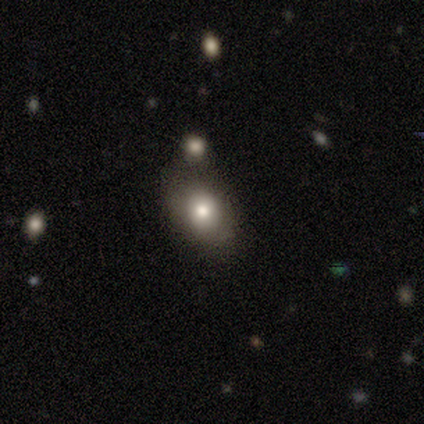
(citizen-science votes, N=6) Smooth or featured: smooth — 100%
How rounded: in between — 67% (round — 33%)
Merging: none — 100%